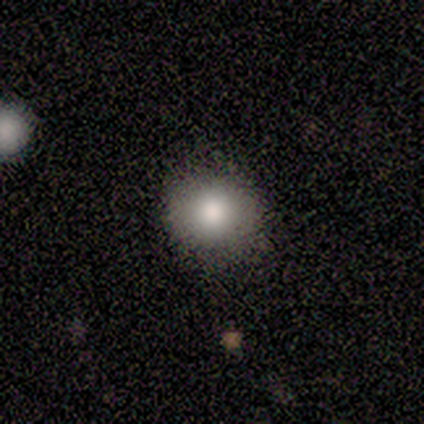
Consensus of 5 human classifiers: smooth-or-featured: smooth: 40% (tied) | star or artifact: 40% (tied) | featured or disk: 20%
  how-rounded: round: 100% | in between: 0% | cigar-shaped: 0%
  merging: none: 100% | minor disturbance: 0% | major disturbance: 0% | merger: 0%